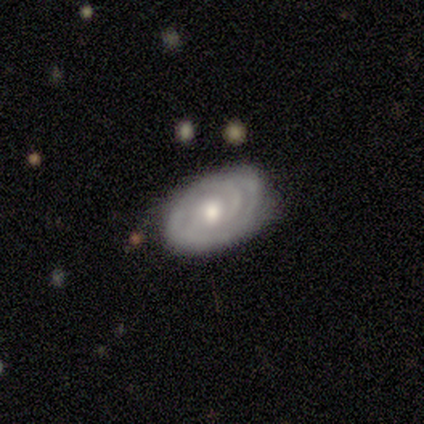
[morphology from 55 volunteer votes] featured or disk 82%, smooth 13%, star or artifact 5%. Down the decision tree: edge-on disk — no (100%); bar — no (73%); spiral arms — yes (89%); spiral arm count — can't tell (38%); spiral winding — tight (82%); bulge size — moderate (76%); merging — none (77%).